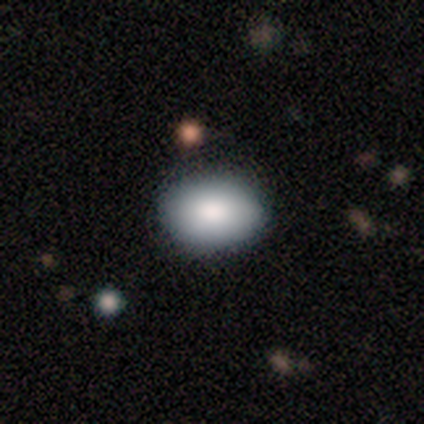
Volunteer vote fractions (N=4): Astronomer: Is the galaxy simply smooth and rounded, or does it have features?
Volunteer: smooth — 75%.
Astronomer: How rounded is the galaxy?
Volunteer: in between — 100%.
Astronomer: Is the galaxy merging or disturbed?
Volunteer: none — 100%.